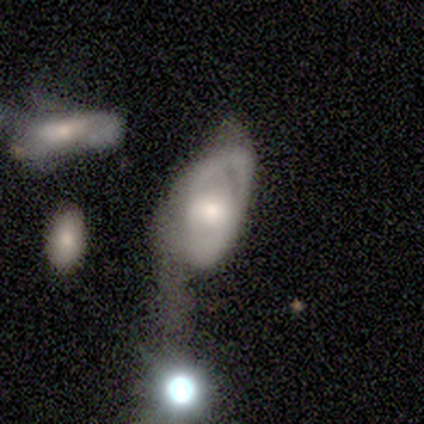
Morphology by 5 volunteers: Smooth or featured? 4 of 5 (80%) said featured or disk. Edge-on disk? 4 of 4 (100%) said no. Bar? 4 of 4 (100%) said no. Spiral arms? 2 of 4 (50%, tied with no) said yes. Spiral winding? 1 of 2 (50%, tied with loose) said tight. Spiral arm count? 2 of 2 (100%) said 1. Bulge size? 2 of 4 (50%) said moderate. Merging? 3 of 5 (60%) said major disturbance.